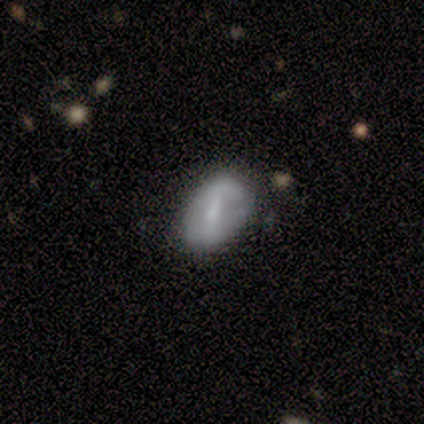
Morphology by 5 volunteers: This appears to be a smooth galaxy with no disk features (60%) that is in between round and cigar-shaped (67%). Merging: none (100%).